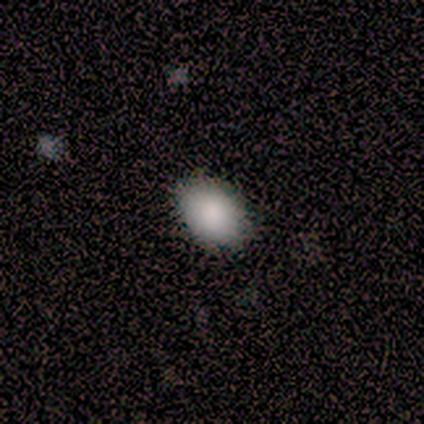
Q: Smooth or featured?
A: smooth (75%); runner-up: featured or disk (25%)
Q: How rounded?
A: in between (67%); runner-up: round (33%)
Q: Merging?
A: none (75%); runner-up: minor disturbance (25%)